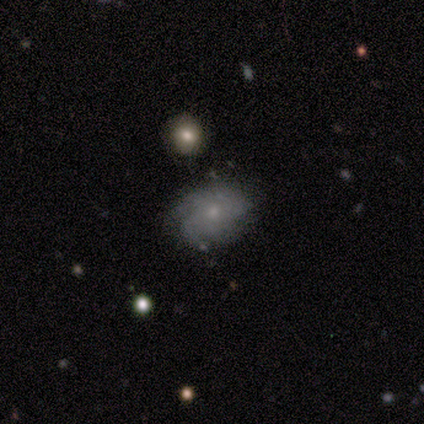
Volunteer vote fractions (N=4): Morphology: type=featured or disk (75%); edge-on=no (100%); bar=no (100%); spiral arms=yes (100%); winding=medium (67%); arm count=can't tell (67%); bulge=small (67%); merging=none (50%, tied with minor disturbance).